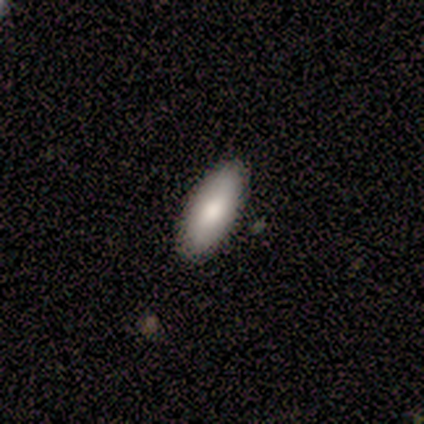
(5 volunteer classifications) Overall: smooth (60%; star or artifact 40%). How rounded: in between (100%). Merging: none (100%).